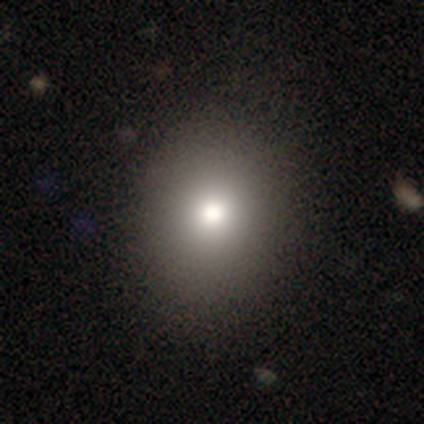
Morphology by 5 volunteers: Smooth or featured? smooth (100%)
How rounded? in between (60%)
Merging? none (80%)